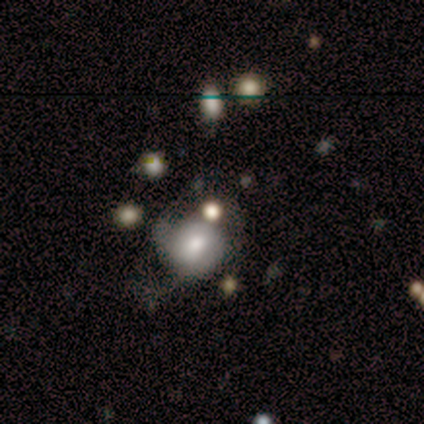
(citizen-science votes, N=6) smooth-or-featured: smooth: 67% | featured or disk: 33% | star or artifact: 0%
  how-rounded: round: 75% | in between: 25% | cigar-shaped: 0%
  merging: none: 33% (tied) | major disturbance: 33% (tied) | minor disturbance: 17% | merger: 17%